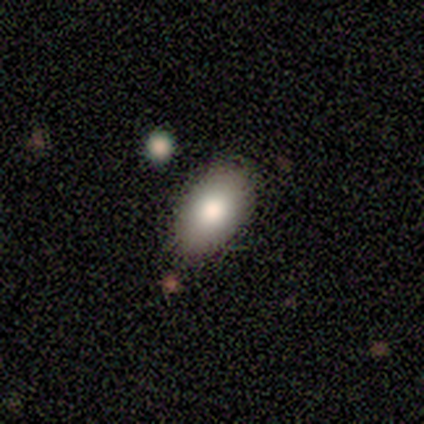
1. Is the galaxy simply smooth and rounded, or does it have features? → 100% smooth, 0% featured or disk, 0% star or artifact.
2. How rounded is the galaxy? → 100% in between, 0% round, 0% cigar-shaped.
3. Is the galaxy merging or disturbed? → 80% none, 20% minor disturbance, 0% major disturbance, 0% merger.